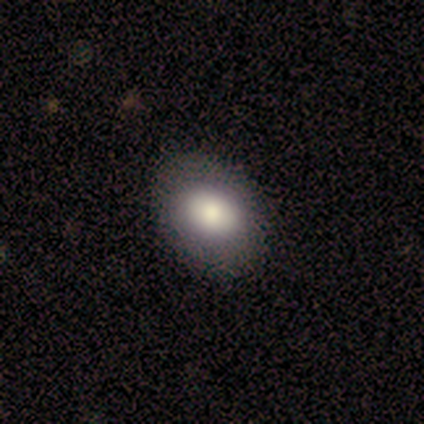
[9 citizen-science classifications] A smooth galaxy with no disk features (89%) that is in between round and cigar-shaped (62%).

Vote fractions:
- Smooth or featured? smooth: 89% / featured or disk: 11% / star or artifact: 0%
- How rounded? in between: 62% / round: 38% / cigar-shaped: 0%
- Merging? none: 89% / minor disturbance: 11% / major disturbance: 0% / merger: 0%